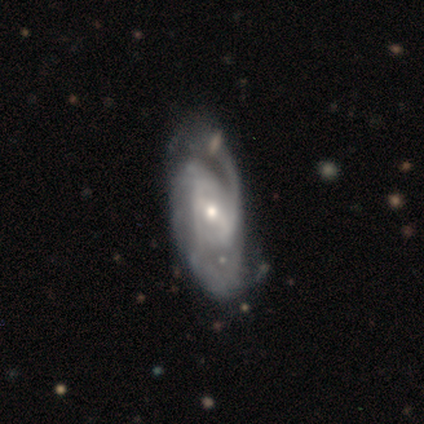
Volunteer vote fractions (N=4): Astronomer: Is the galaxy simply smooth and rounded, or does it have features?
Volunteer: featured or disk — 100%.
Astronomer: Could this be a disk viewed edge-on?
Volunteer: no — 100%.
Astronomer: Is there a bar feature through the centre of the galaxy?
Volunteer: weak — 100%.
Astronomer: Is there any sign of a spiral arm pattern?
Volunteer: yes — 75%.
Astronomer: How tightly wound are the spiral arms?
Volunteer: tight — 33%, tied with medium and loose at 33%.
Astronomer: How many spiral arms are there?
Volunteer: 2 — 67%.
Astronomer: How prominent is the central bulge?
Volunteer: small — 75%.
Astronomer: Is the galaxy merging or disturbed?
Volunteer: none — 75%.